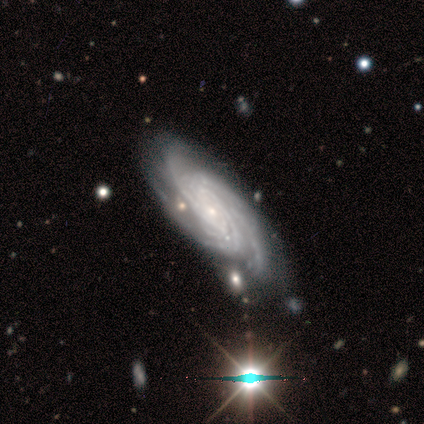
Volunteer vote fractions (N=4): Smooth or featured: featured or disk — 100%
Edge-on disk: no — 100%
Bar: weak — 50% (tied with no — 50%)
Spiral arms: yes — 100%
Spiral winding: tight — 75% (medium — 25%)
Spiral arm count: 3 — 50% (4 — 25%)
Bulge size: small — 75% (none — 25%)
Merging: none — 100%